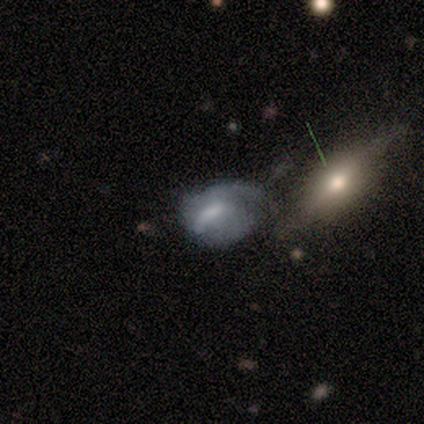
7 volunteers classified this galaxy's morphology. smooth-or-featured: featured or disk: 57% | smooth: 43% | star or artifact: 0%
  disk-edge-on: no: 100% | yes: 0%
    bar: strong: 50% (tied) | weak: 50% (tied) | no: 0%
    has-spiral-arms: yes: 50% (tied) | no: 50% (tied)
      spiral-winding: medium: 50% (tied) | loose: 50% (tied) | tight: 0%
      spiral-arm-count: 1: 50% (tied) | 2: 50% (tied) | 3: 0% | 4: 0% | more than 4: 0% | can't tell: 0%
    bulge-size: none: 75% | moderate: 25% | dominant: 0% | large: 0% | small: 0%
  merging: none: 29% (tied) | minor disturbance: 29% (tied) | merger: 29% (tied) | major disturbance: 14%